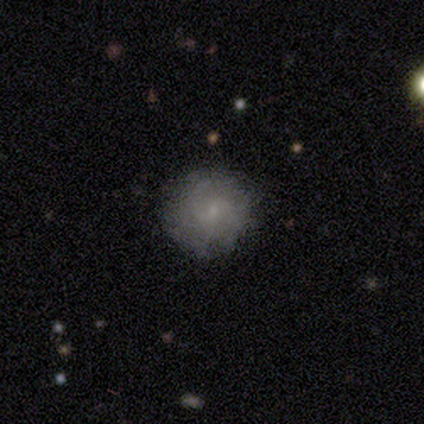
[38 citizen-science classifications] Q: Smooth or featured?
A: smooth (66%); runner-up: featured or disk (29%)
Q: How rounded?
A: round (100%)
Q: Merging?
A: none (92%); runner-up: minor disturbance (8%)